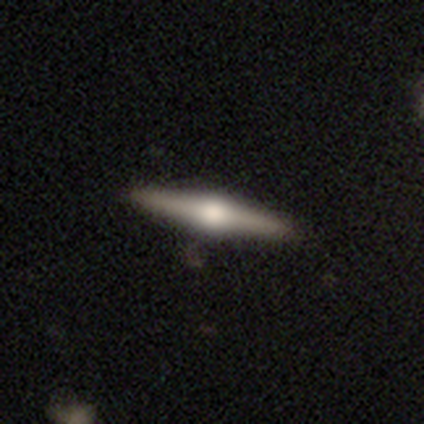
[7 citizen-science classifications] smooth_or_featured: smooth (p=0.57) [alt: featured or disk p=0.43]
how_rounded: cigar-shaped (p=0.75) [alt: in between p=0.25]
merging: none (p=0.71) [alt: minor disturbance p=0.14]